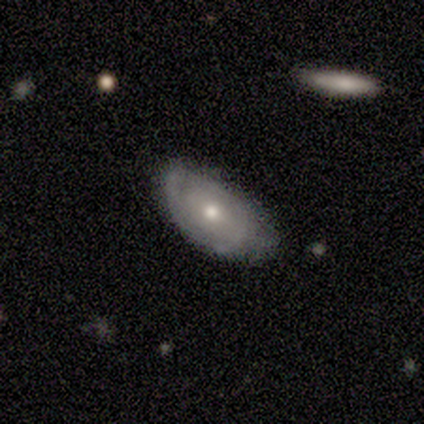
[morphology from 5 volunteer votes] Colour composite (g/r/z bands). It shows a smooth galaxy with no disk features (60%) that is in between round and cigar-shaped (100%). Merging: none (100%).